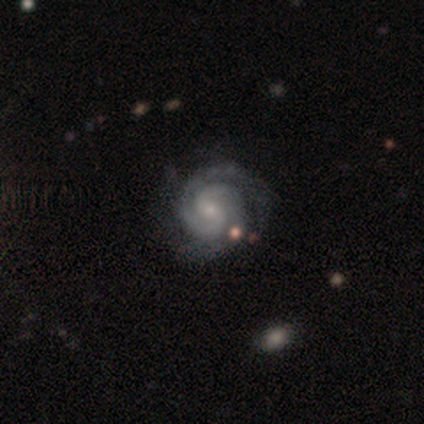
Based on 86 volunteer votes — Q: Smooth or featured?
A: featured or disk (95%); runner-up: star or artifact (5%)
Q: Edge-on disk?
A: no (96%); runner-up: yes (4%)
Q: Bar?
A: weak (49%); runner-up: no (44%)
Q: Spiral arms?
A: yes (100%)
Q: Spiral winding?
A: tight (82%); runner-up: medium (15%)
Q: Spiral arm count?
A: 2 (81%); runner-up: 3 (14%)
Q: Bulge size?
A: small (73%); runner-up: moderate (22%)
Q: Merging?
A: none (79%); runner-up: minor disturbance (17%)